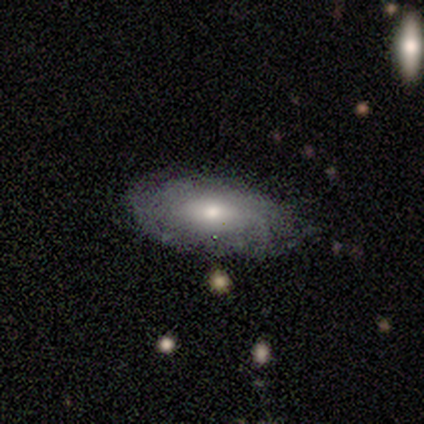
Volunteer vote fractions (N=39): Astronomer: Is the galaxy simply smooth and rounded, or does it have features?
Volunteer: featured or disk — 54% (runner-up: smooth, 38%).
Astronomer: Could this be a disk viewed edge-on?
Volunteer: no — 86%.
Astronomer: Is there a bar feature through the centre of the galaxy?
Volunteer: no — 83%.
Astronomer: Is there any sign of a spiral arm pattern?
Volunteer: no — 72%.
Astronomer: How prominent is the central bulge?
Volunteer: moderate — 61%.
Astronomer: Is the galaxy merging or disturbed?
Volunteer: none — 47%.